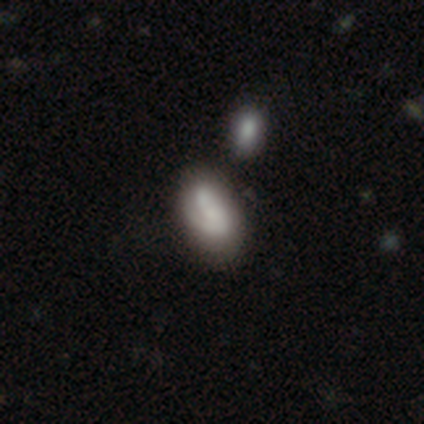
smooth 80%, featured or disk 20%, star or artifact 0%. Down the decision tree: how rounded — in between (75%); merging — none (60%).